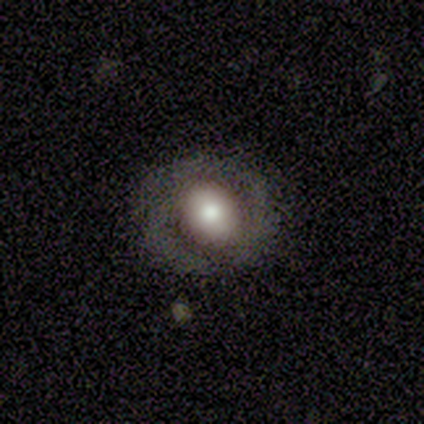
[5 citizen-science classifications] A smooth galaxy with no disk features (40%, tied with featured or disk) that is round (100%).

Vote fractions:
- Smooth or featured? smooth: 40% (tied) / featured or disk: 40% (tied) / star or artifact: 20%
- How rounded? round: 100% / in between: 0% / cigar-shaped: 0%
- Merging? none: 50% / minor disturbance: 25% / major disturbance: 25% / merger: 0%